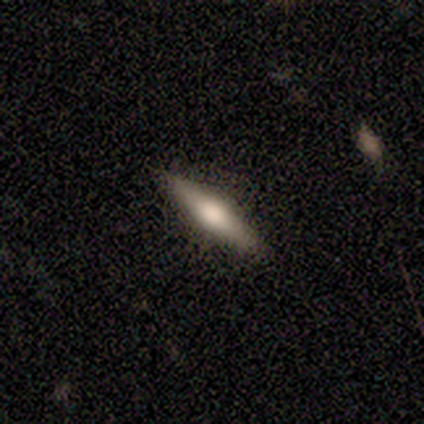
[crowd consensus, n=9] Smooth or featured?
  - smooth: 67% *
  - featured or disk: 33%
  - star or artifact: 0%
How rounded?
  - cigar-shaped: 100% *
  - round: 0%
  - in between: 0%
Merging?
  - none: 89% *
  - minor disturbance: 11%
  - major disturbance: 0%
  - merger: 0%